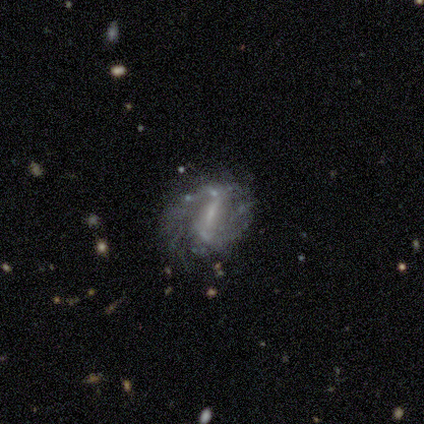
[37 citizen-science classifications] featured or disk 89%, smooth 8%, star or artifact 3%. Down the decision tree: edge-on disk — no (97%); bar — strong (53%); spiral arms — yes (75%); spiral arm count — 2 (71%); spiral winding — medium (42%); bulge size — small (59%); merging — none (72%).